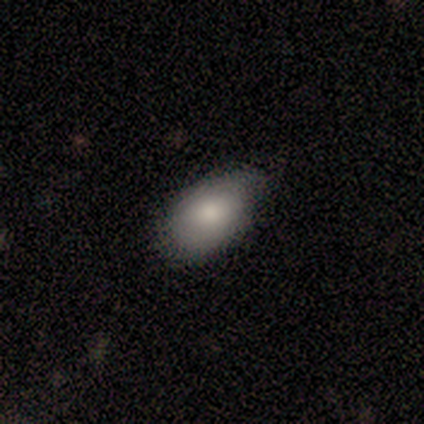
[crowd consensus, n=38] smooth_or_featured: smooth (p=0.84) [alt: featured or disk p=0.08]
how_rounded: in between (p=0.94) [alt: round p=0.06]
merging: none (p=0.83) [alt: minor disturbance p=0.17]